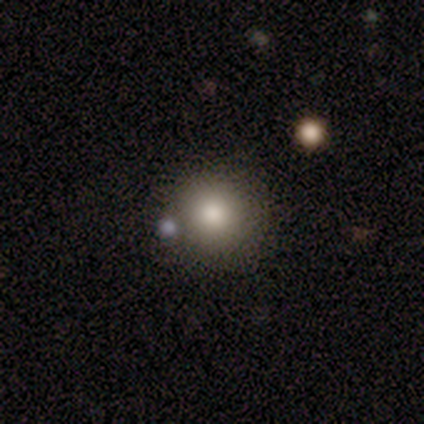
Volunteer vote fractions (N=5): Volunteers were most divided on "smooth or featured": smooth: 60%, star or artifact: 40%, featured or disk: 0%. More confident: how rounded — round (100%); merging — none (100%).